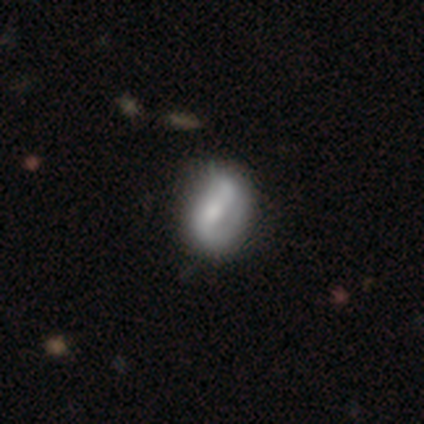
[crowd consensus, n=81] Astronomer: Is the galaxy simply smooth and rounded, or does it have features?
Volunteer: featured or disk — 57% (runner-up: smooth, 35%).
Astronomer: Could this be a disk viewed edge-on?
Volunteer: no — 98%.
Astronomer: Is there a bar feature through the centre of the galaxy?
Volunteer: strong — 38%, tied with no at 38%.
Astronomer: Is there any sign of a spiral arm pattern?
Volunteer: yes — 71%.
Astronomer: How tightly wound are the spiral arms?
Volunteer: loose — 44% (runner-up: tight, 31%).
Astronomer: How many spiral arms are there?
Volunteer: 2 — 69%.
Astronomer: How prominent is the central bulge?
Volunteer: moderate — 42% (runner-up: small, 29%).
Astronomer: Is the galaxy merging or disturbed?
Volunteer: none — 27% (runner-up: minor disturbance, 11%).